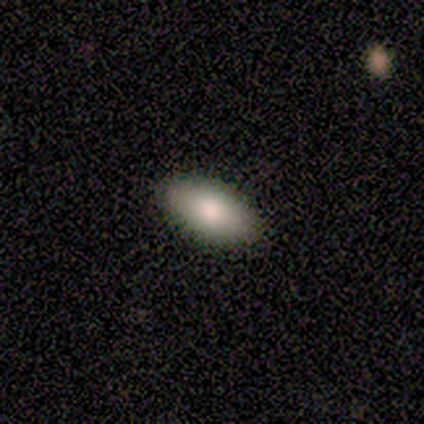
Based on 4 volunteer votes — Q: Smooth or featured?
A: smooth (100%)
Q: How rounded?
A: in between (100%)
Q: Merging?
A: none (100%)